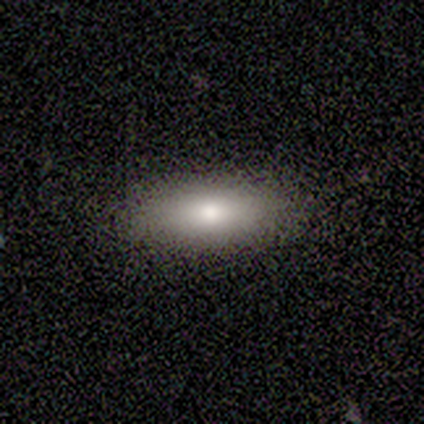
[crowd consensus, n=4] smooth-or-featured: smooth: 100% | featured or disk: 0% | star or artifact: 0%
  how-rounded: in between: 100% | round: 0% | cigar-shaped: 0%
  merging: none: 75% | minor disturbance: 25% | major disturbance: 0% | merger: 0%